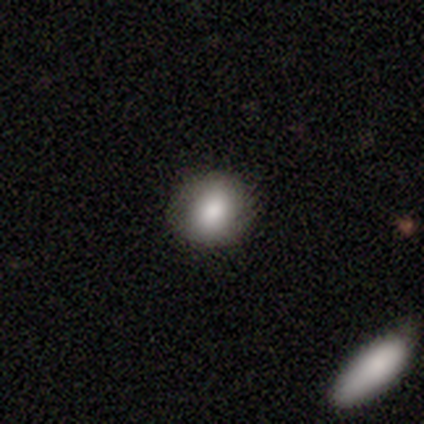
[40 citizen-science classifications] A smooth galaxy with no disk features (92%) that is round (76%). Merging: none (92%).